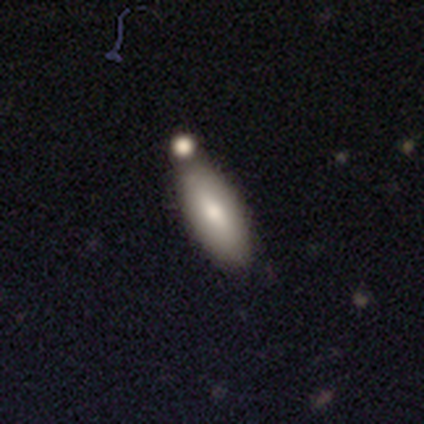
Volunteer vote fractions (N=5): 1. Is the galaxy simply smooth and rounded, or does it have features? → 100% smooth, 0% featured or disk, 0% star or artifact.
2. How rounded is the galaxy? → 60% in between, 40% cigar-shaped, 0% round.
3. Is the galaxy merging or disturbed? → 60% none, 40% merger, 0% minor disturbance, 0% major disturbance.